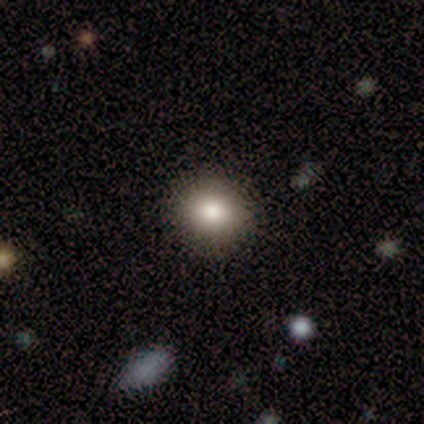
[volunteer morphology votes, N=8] Smooth or featured: smooth — 100%
How rounded: round — 100%
Merging: none — 100%